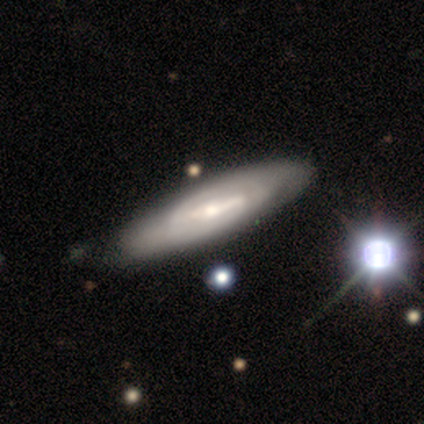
Smooth or featured: smooth — 57% (featured or disk — 43%)
How rounded: in between — 50% (tied with cigar-shaped — 50%)
Merging: none — 43% (tied with minor disturbance — 43%)